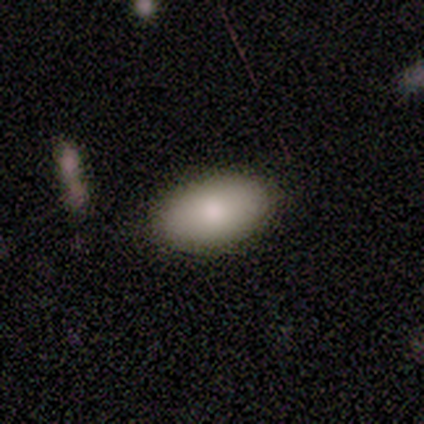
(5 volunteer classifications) Overall: smooth (80%). How rounded: in between (75%). Merging: none (80%).